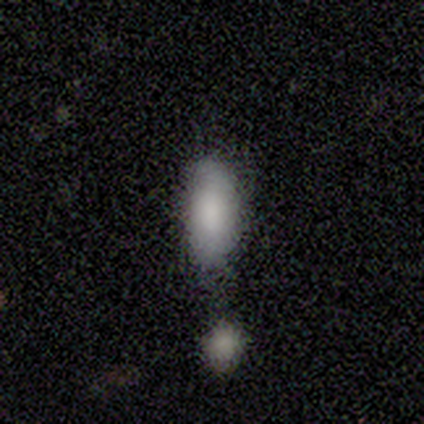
Overall: smooth (60%; star or artifact 40%). How rounded: in between (67%; cigar-shaped 33%). Merging: none (67%; minor disturbance 33%).